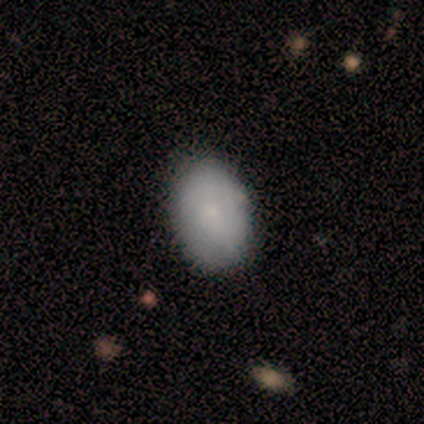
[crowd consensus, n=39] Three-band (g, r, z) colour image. It shows a smooth galaxy with no disk features (82%) that is in between round and cigar-shaped (88%). Merging: none (55%).